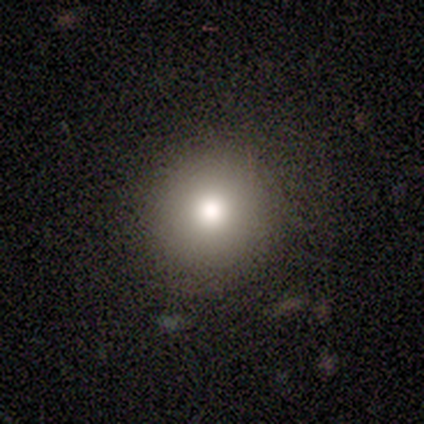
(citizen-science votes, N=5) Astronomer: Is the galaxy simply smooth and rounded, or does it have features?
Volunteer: smooth — 60% (runner-up: star or artifact, 40%).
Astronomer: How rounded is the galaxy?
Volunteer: round — 100%.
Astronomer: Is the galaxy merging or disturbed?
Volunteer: minor disturbance — 67%.